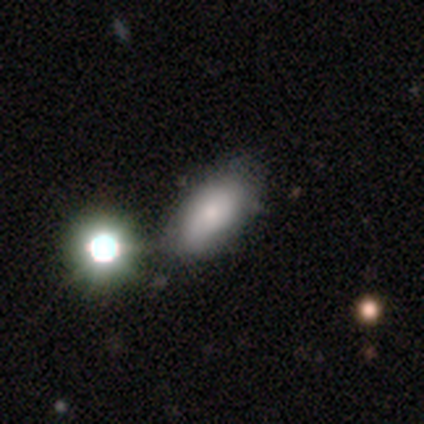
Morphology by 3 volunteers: Overall: smooth (100%). How rounded: in between (100%). Merging: minor disturbance (67%; major disturbance 33%).